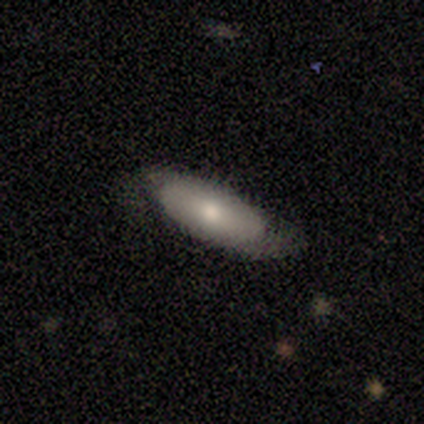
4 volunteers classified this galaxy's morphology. Smooth or featured? 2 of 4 (50%, tied with featured or disk) said smooth. How rounded? 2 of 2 (100%) said in between. Merging? 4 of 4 (100%) said none.